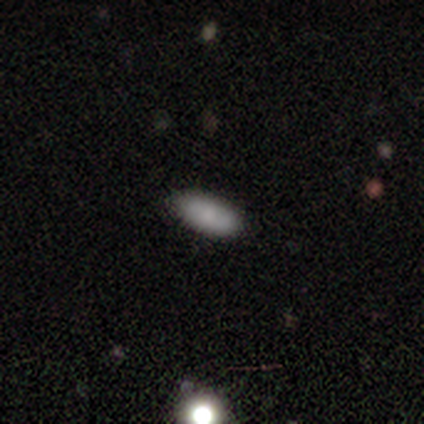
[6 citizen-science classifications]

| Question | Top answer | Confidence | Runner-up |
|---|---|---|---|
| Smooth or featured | smooth | 100% | — |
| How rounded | in between | 100% | — |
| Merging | none | 100% | — |